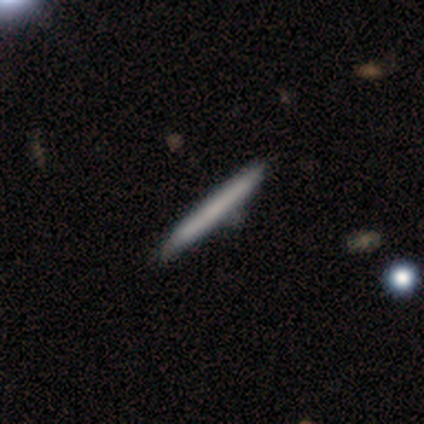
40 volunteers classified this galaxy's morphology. smooth_or_featured: smooth (p=0.68) [alt: featured or disk p=0.33]
how_rounded: cigar-shaped (p=0.93) [alt: round p=0.04]
merging: none (p=0.90) [alt: minor disturbance p=0.07]